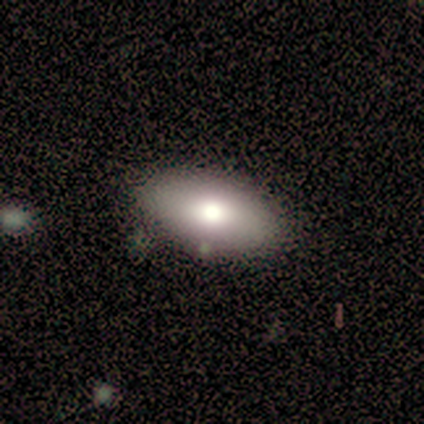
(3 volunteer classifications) Smooth or featured?
  - smooth: 67% *
  - featured or disk: 33%
  - star or artifact: 0%
How rounded?
  - in between: 100% *
  - round: 0%
  - cigar-shaped: 0%
Merging?
  - none: 100% *
  - minor disturbance: 0%
  - major disturbance: 0%
  - merger: 0%